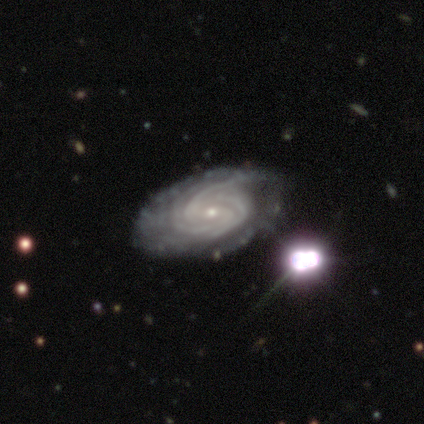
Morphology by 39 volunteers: This appears to be a featured or disk galaxy (97%) with no bar (46%), 3 (57%) tight (84%) spiral arms (100%) and a small central bulge (92%). Merging: none (45%).